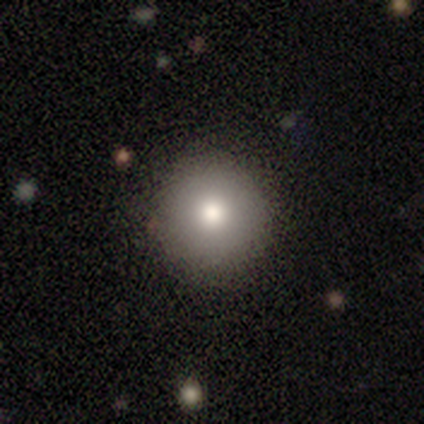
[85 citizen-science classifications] smooth-or-featured: smooth: 76% | featured or disk: 12% | star or artifact: 12%
  how-rounded: round: 94% | in between: 5% | cigar-shaped: 2%
  merging: none: 91% | minor disturbance: 8% | major disturbance: 1% | merger: 0%